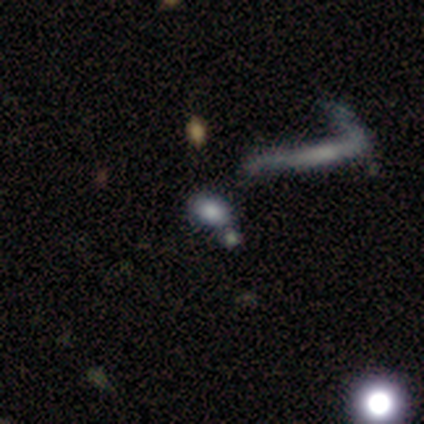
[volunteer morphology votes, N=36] A smooth galaxy with no disk features (69%) that is in between round and cigar-shaped (92%).

Vote fractions:
- Smooth or featured? smooth: 69% / star or artifact: 22% / featured or disk: 8%
- How rounded? in between: 92% / round: 8% / cigar-shaped: 0%
- Merging? none: 54% / merger: 32% / minor disturbance: 7% / major disturbance: 7%